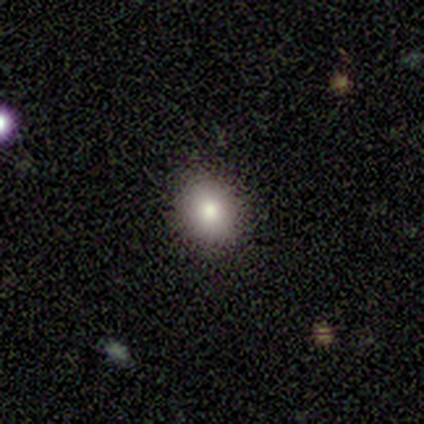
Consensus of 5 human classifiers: Smooth or featured? 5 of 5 (100%) said smooth. How rounded? 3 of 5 (60%) said round. Merging? 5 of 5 (100%) said none.